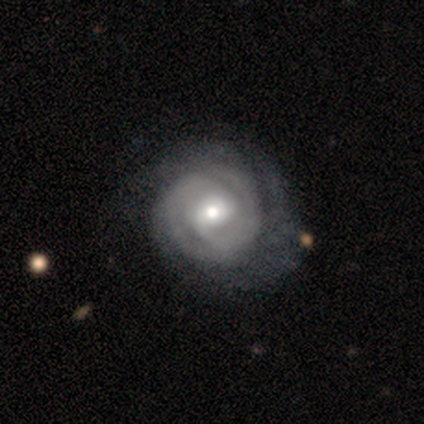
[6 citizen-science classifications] Q: Smooth or featured?
A: featured or disk (100%)
Q: Edge-on disk?
A: no (100%)
Q: Bar?
A: weak (50%); tied with: no (50%)
Q: Spiral arms?
A: yes (83%); runner-up: no (17%)
Q: Spiral winding?
A: tight (100%)
Q: Spiral arm count?
A: 2 (40%); tied with: 3 (40%)
Q: Bulge size?
A: moderate (83%); runner-up: small (17%)
Q: Merging?
A: none (83%); runner-up: minor disturbance (17%)